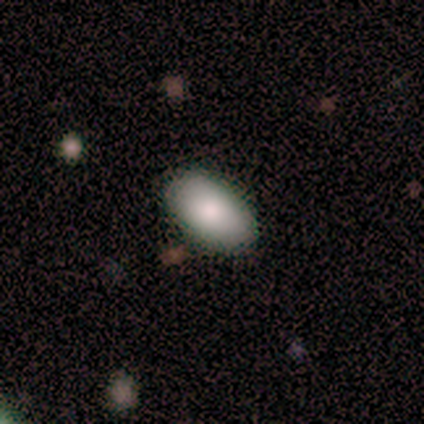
This appears to be a smooth galaxy with no disk features (80%) that is in between round and cigar-shaped (83%). Merging: none (93%).